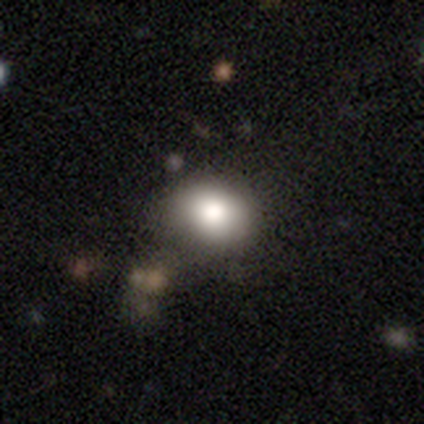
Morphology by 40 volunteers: Smooth or featured? smooth (78%)
How rounded? round (52%)
Merging? none (76%)